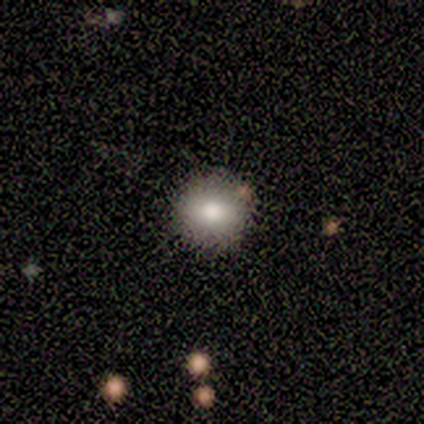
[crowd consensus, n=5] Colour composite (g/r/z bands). It shows a smooth galaxy with no disk features (80%) that is round (100%). Merging: none (100%).